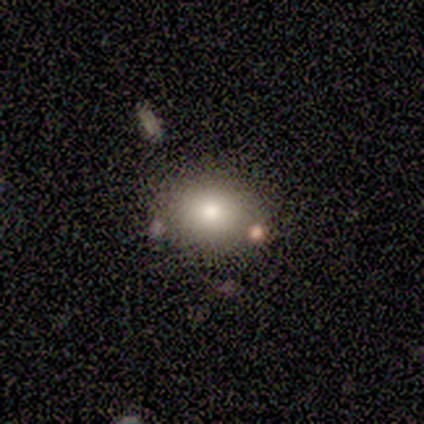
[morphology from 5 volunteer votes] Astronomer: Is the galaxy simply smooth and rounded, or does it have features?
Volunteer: smooth — 60% (runner-up: star or artifact, 40%).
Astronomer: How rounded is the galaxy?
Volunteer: round — 67%.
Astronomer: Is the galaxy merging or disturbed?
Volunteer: none — 33%, tied with minor disturbance and merger at 33%.